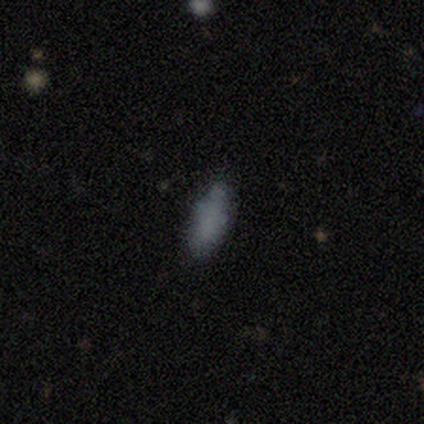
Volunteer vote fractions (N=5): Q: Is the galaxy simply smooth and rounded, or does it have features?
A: smooth — 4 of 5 (80%).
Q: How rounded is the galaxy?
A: in between — 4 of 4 (100%).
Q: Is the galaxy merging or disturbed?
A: none — 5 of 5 (100%).